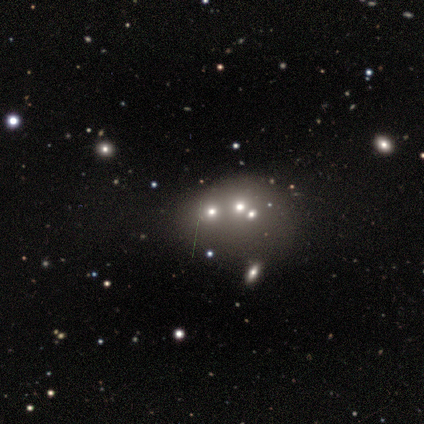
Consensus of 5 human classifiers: Overall: featured or disk (40%, tied with star or artifact). Edge-on disk: yes (50%, tied with no). Edge-on bulge: none (100%). Merging: none (67%; merger 33%).